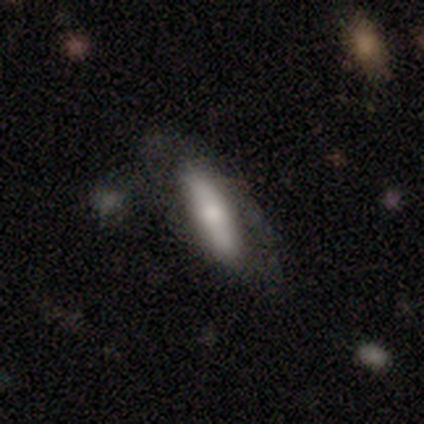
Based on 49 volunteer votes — smooth_or_featured: smooth (p=0.80) [alt: featured or disk p=0.16]
how_rounded: cigar-shaped (p=0.69) [alt: in between p=0.28]
merging: none (p=0.62) [alt: minor disturbance p=0.23]